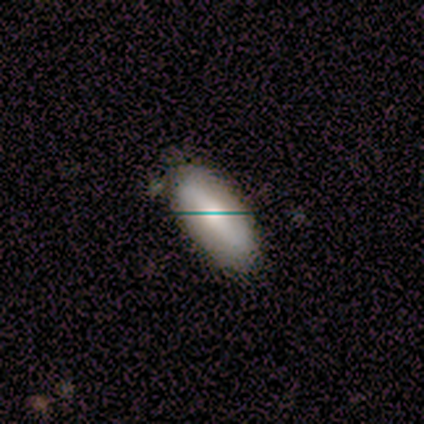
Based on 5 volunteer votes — smooth-or-featured: smooth: 100% | featured or disk: 0% | star or artifact: 0%
  how-rounded: in between: 100% | round: 0% | cigar-shaped: 0%
  merging: none: 80% | minor disturbance: 20% | major disturbance: 0% | merger: 0%